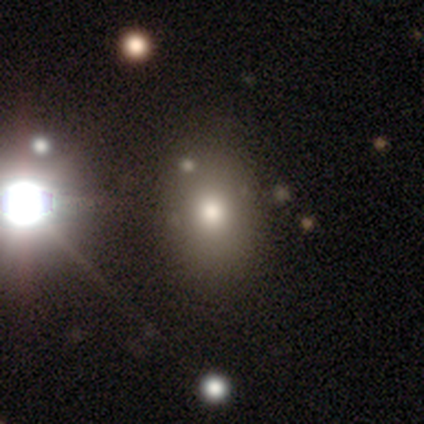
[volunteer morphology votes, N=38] smooth_or_featured: smooth (p=0.74) [alt: star or artifact p=0.16]
how_rounded: in between (p=0.71) [alt: round p=0.25]
merging: none (p=0.59) [alt: merger p=0.09]